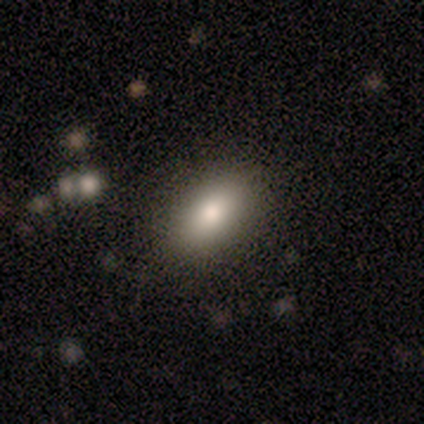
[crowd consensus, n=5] Smooth or featured: smooth — 80% (featured or disk — 20%)
How rounded: in between — 100%
Merging: none — 100%